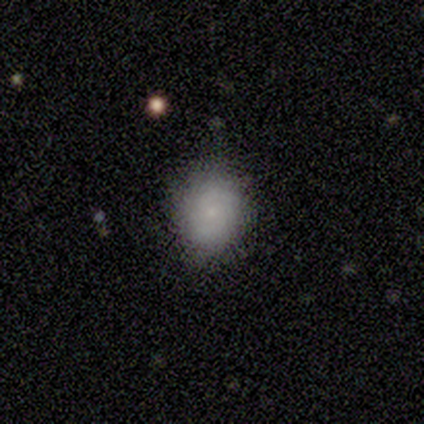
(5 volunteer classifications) smooth-or-featured: smooth: 40% (tied) | star or artifact: 40% (tied) | featured or disk: 20%
  how-rounded: in between: 100% | round: 0% | cigar-shaped: 0%
  merging: none: 67% | major disturbance: 33% | minor disturbance: 0% | merger: 0%